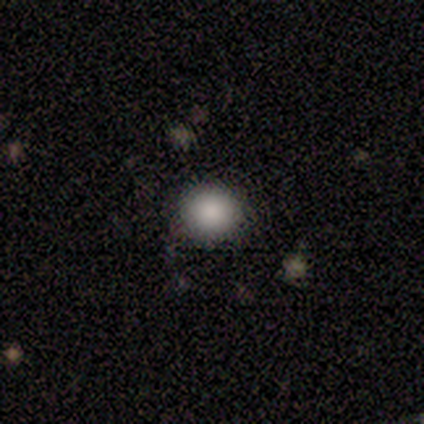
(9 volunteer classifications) Q: Smooth or featured?
A: smooth (100%)
Q: How rounded?
A: round (100%)
Q: Merging?
A: none (89%); runner-up: minor disturbance (11%)